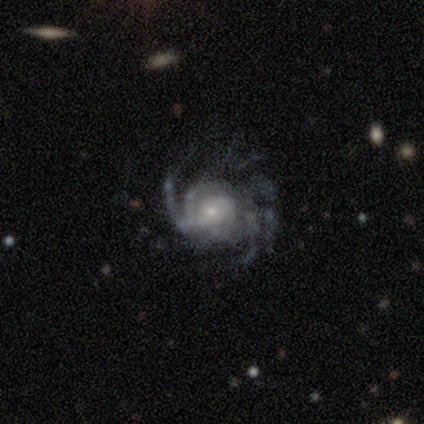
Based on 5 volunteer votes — A featured or disk galaxy (100%) with a weak bar (50%, tied with no), medium (75%) spiral arms (100%) and a moderate central bulge (50%, tied with small).

Vote fractions:
- Smooth or featured? featured or disk: 100% / smooth: 0% / star or artifact: 0%
- Edge-on disk? no: 80% / yes: 20%
- Bar? weak: 50% (tied) / no: 50% (tied) / strong: 0%
- Spiral arms? yes: 100% / no: 0%
- Spiral winding? medium: 75% / loose: 25% / tight: 0%
- Spiral arm count? can't tell: 50% / 2: 25% / 4: 25% / 1: 0% / 3: 0% / more than 4: 0%
- Bulge size? moderate: 50% (tied) / small: 50% (tied) / dominant: 0% / large: 0% / none: 0%
- Merging? none: 40% (tied) / major disturbance: 40% (tied) / minor disturbance: 20% / merger: 0%